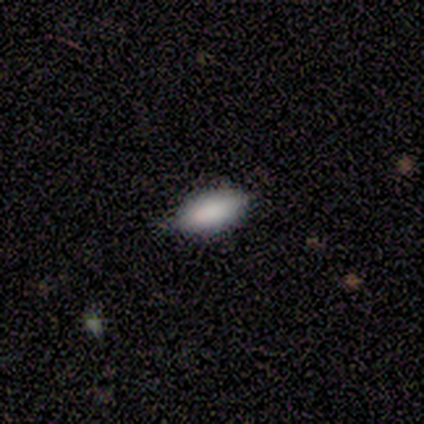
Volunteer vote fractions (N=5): smooth_or_featured: smooth (p=0.80) [alt: featured or disk p=0.20]
how_rounded: in between (p=1.00)
merging: none (p=0.80) [alt: major disturbance p=0.20]